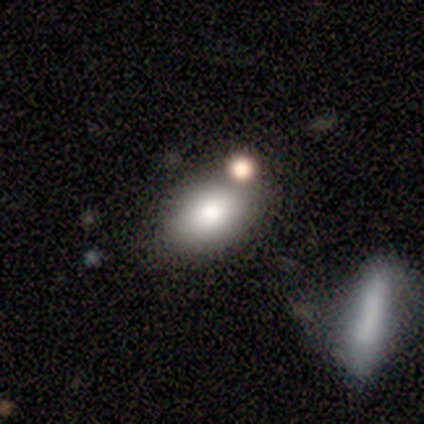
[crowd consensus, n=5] smooth 100%, featured or disk 0%, star or artifact 0%. Down the decision tree: how rounded — in between (80%); merging — none (80%).